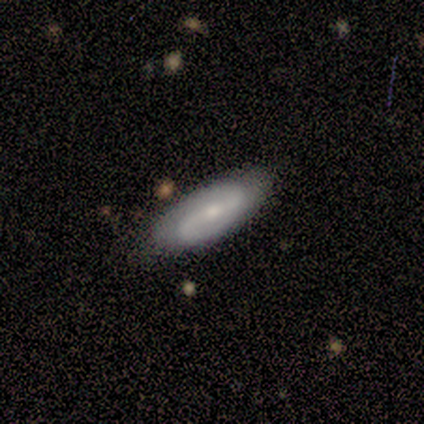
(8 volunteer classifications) smooth_or_featured: featured or disk (p=0.75) [alt: smooth p=0.25]
disk_edge_on: no (p=0.83) [alt: yes p=0.17]
bar: weak (p=0.80) [alt: no p=0.20]
has_spiral_arms: yes (p=0.80) [alt: no p=0.20]
spiral_winding: loose (p=0.75) [alt: tight p=0.25]
spiral_arm_count: 2 (p=1.00)
bulge_size: small (p=0.60) [alt: moderate p=0.40]
merging: none (p=0.88) [alt: minor disturbance p=0.12]